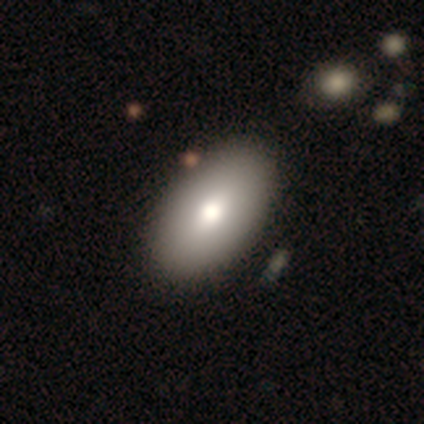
smooth-or-featured: smooth: 75% | featured or disk: 25% | star or artifact: 0%
  how-rounded: in between: 97% | cigar-shaped: 3% | round: 0%
  merging: none: 65% | merger: 5% | minor disturbance: 2% | major disturbance: 0%